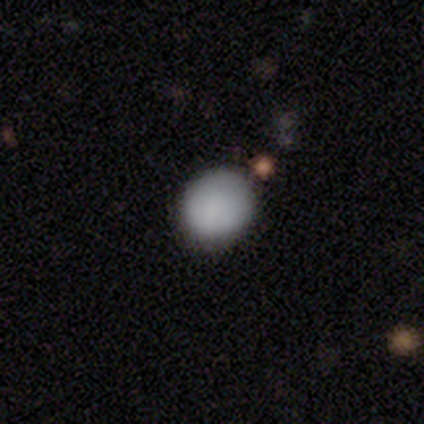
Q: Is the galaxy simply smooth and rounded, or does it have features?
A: smooth — 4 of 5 (80%).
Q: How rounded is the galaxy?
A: round — 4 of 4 (100%).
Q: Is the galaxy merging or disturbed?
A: none — 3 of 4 (75%).